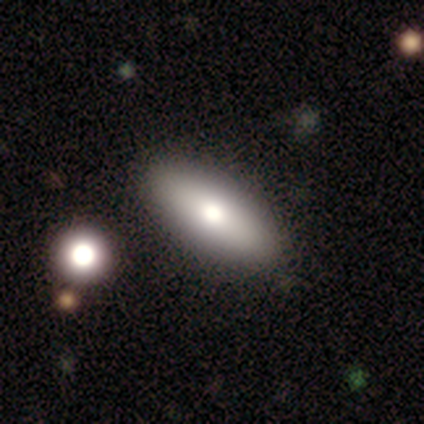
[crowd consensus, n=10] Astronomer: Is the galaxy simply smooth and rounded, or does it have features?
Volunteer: smooth — 60% (runner-up: featured or disk, 40%).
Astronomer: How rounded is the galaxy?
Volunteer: in between — 83%.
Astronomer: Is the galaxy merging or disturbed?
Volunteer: none — 100%.